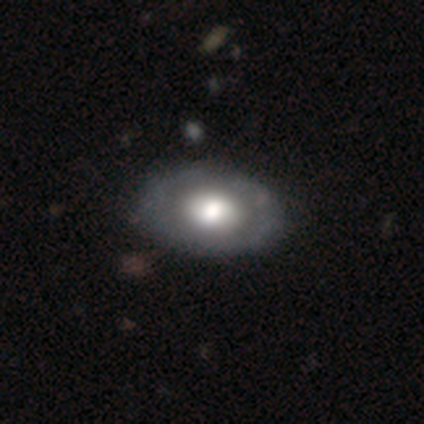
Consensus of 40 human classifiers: This is possibly a smooth galaxy (52%). How rounded: clearly in between (90%). Merging: likely none (67%).